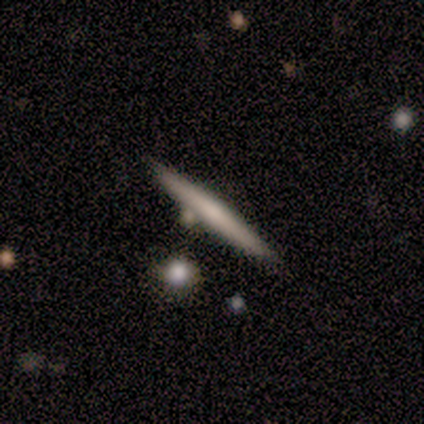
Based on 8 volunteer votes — Overall: featured or disk (62%; smooth 38%). Edge-on disk: yes (80%). Edge-on bulge: none (75%). Merging: none (62%; merger 25%).